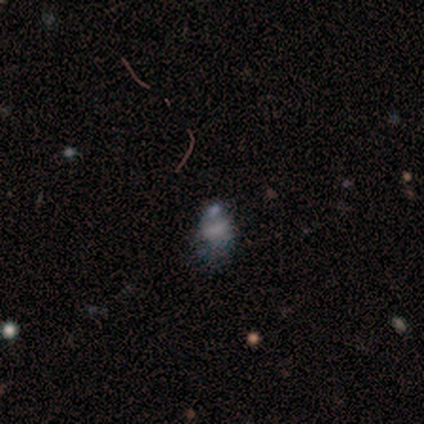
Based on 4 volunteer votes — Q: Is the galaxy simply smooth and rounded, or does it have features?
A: featured or disk — 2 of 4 (50%).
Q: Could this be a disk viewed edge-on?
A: no — 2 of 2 (100%).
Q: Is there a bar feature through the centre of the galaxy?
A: weak — 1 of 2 (50%, tied with no).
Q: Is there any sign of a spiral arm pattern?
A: yes — 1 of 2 (50%, tied with no).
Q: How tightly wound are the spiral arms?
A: medium — 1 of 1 (100%).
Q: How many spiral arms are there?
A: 2 — 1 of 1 (100%).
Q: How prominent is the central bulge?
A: moderate — 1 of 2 (50%, tied with none).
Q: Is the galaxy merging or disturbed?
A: minor disturbance — 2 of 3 (67%).